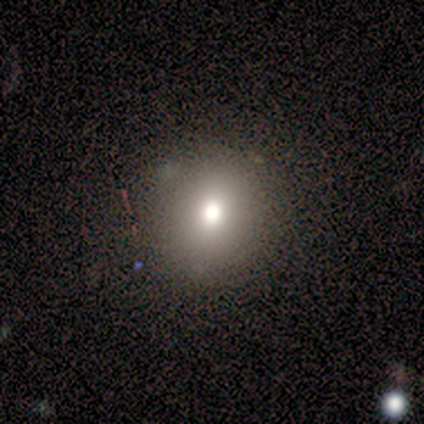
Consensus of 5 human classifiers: A smooth galaxy with no disk features (60%) that is round (100%). Merging: none (100%).